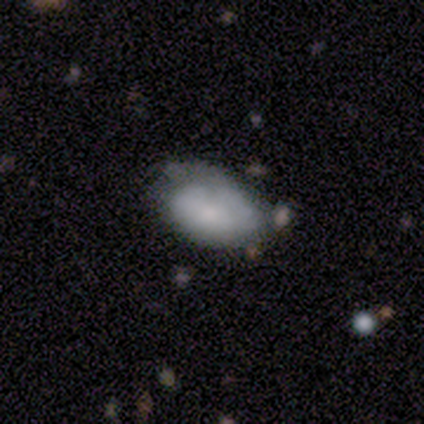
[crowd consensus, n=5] Smooth or featured? 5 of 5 (100%) said smooth. How rounded? 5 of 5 (100%) said in between. Merging? 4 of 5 (80%) said minor disturbance.